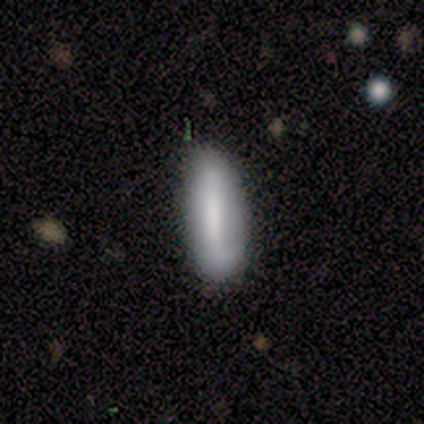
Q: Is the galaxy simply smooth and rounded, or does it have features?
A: smooth — 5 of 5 (100%).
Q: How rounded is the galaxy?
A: in between — 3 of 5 (60%).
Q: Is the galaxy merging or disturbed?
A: none — 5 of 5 (100%).